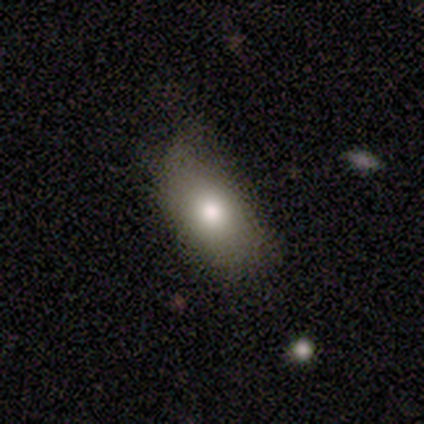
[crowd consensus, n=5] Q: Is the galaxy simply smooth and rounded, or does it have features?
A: smooth — 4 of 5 (80%).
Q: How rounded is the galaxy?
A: in between — 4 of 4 (100%).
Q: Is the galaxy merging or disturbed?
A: none — 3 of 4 (75%).